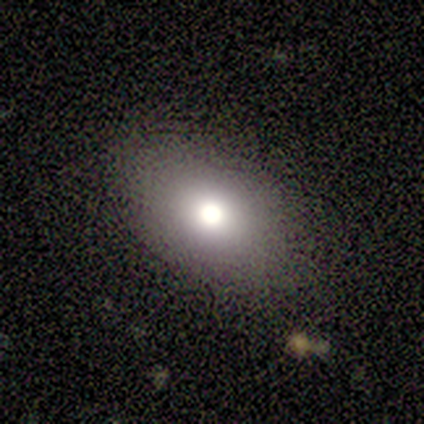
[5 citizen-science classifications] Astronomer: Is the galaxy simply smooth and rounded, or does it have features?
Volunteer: smooth — 60%.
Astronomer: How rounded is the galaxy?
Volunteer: in between — 100%.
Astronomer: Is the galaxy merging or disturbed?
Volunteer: none — 75%.